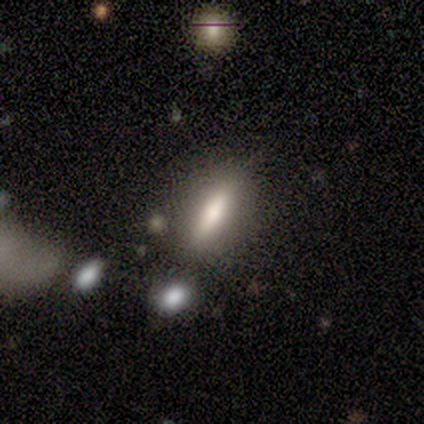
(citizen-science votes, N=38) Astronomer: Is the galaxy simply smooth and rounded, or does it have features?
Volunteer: smooth — 66%.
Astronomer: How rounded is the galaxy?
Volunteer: in between — 56% (runner-up: cigar-shaped, 44%).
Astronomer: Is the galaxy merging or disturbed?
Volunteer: none — 86%.